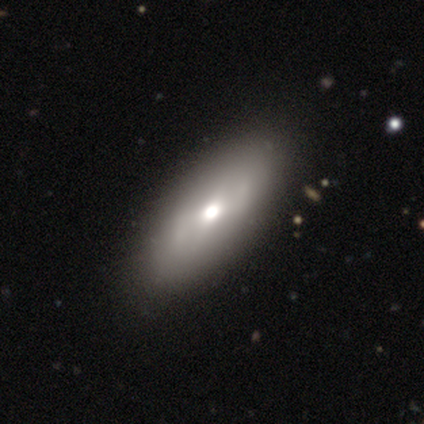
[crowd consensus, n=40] Q: Smooth or featured?
A: smooth (57%); runner-up: featured or disk (30%)
Q: How rounded?
A: in between (87%); runner-up: cigar-shaped (9%)
Q: Merging?
A: none (83%); runner-up: minor disturbance (11%)